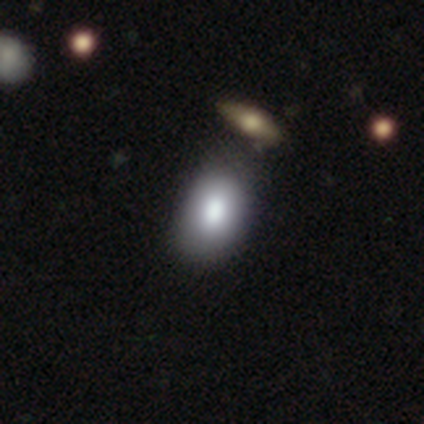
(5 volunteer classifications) smooth 80%, featured or disk 20%, star or artifact 0%. Down the decision tree: how rounded — in between (100%); merging — none (80%).